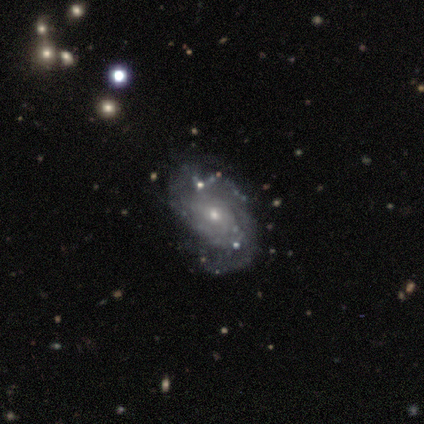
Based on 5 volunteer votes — Smooth or featured?
  - featured or disk: 100% *
  - smooth: 0%
  - star or artifact: 0%
Edge-on disk?
  - no: 100% *
  - yes: 0%
Bar?
  - no: 60% *
  - weak: 40%
  - strong: 0%
Spiral arms?
  - yes: 100% *
  - no: 0%
Spiral winding?
  - tight: 40% * (tied)
  - loose: 40% * (tied)
  - medium: 20%
Spiral arm count?
  - 2: 80% *
  - can't tell: 20%
  - 1: 0%
  - 3: 0%
  - 4: 0%
  - more than 4: 0%
Bulge size?
  - small: 100% *
  - dominant: 0%
  - large: 0%
  - moderate: 0%
  - none: 0%
Merging?
  - none: 80% *
  - minor disturbance: 20%
  - major disturbance: 0%
  - merger: 0%